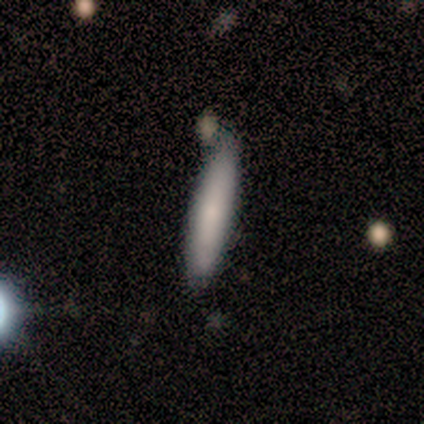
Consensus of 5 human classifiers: Smooth or featured? smooth (80%)
How rounded? cigar-shaped (100%)
Merging? none (40%, tied with minor disturbance)